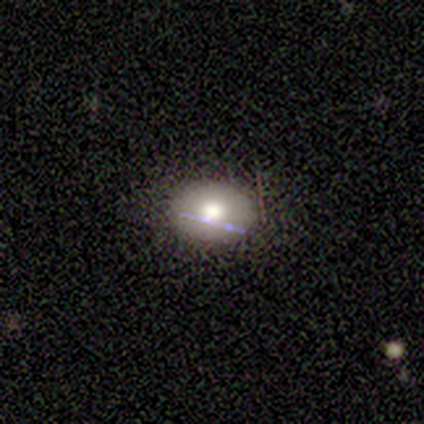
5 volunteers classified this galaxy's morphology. type=smooth (40%, tied with featured or disk); roundness=round (50%, tied with in between); merging=none (100%).